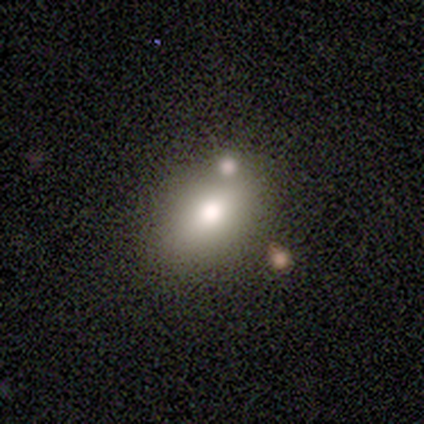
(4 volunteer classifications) Morphology: type=smooth (75%); roundness=in between (67%); merging=none (100%).